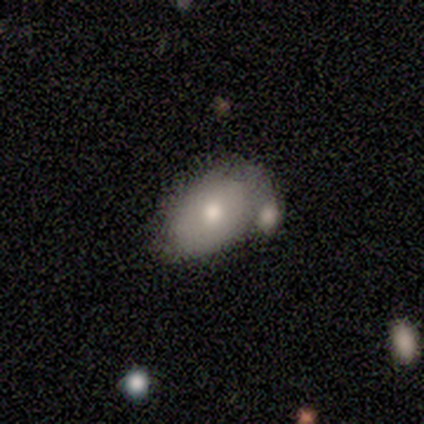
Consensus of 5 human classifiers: Smooth or featured?
  - featured or disk: 60% *
  - smooth: 20%
  - star or artifact: 20%
Edge-on disk?
  - no: 100% *
  - yes: 0%
Bar?
  - no: 100% *
  - strong: 0%
  - weak: 0%
Spiral arms?
  - no: 100% *
  - yes: 0%
Bulge size?
  - moderate: 100% *
  - dominant: 0%
  - large: 0%
  - small: 0%
  - none: 0%
Merging?
  - minor disturbance: 50% *
  - major disturbance: 25%
  - merger: 25%
  - none: 0%